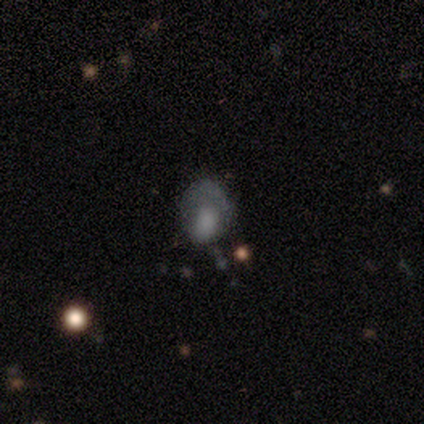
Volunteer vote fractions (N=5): Q: Smooth or featured?
A: smooth (80%); runner-up: featured or disk (20%)
Q: How rounded?
A: in between (100%)
Q: Merging?
A: minor disturbance (60%); runner-up: none (20%)